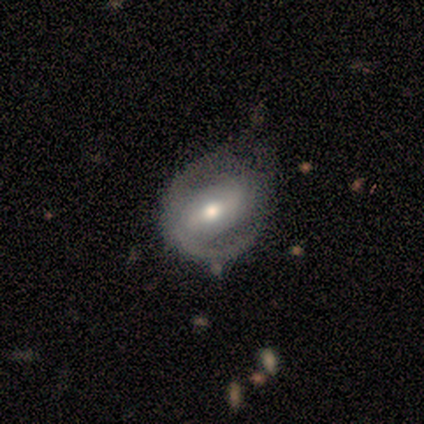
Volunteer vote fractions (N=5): smooth_or_featured: featured or disk (p=1.00)
disk_edge_on: no (p=0.80) [alt: yes p=0.20]
bar: strong (p=0.50) [alt: weak p=0.25]
has_spiral_arms: yes (p=0.50) [tied with: no p=0.50]
spiral_winding: tight (p=0.50) [tied with: loose p=0.50]
spiral_arm_count: 2 (p=0.50) [tied with: can't tell p=0.50]
bulge_size: moderate (p=0.75) [alt: small p=0.25]
merging: none (p=0.80) [alt: minor disturbance p=0.20]